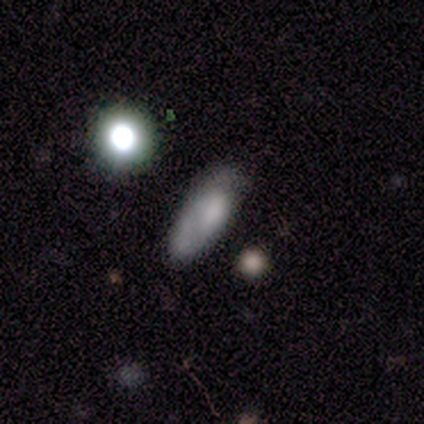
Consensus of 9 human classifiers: Smooth or featured? 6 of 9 (67%) said smooth. How rounded? 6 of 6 (100%) said in between. Merging? 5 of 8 (62%) said minor disturbance.